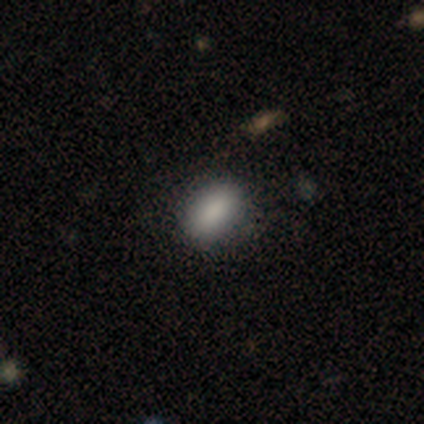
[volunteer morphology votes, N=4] Smooth or featured? 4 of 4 (100%) said smooth. How rounded? 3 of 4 (75%) said in between. Merging? 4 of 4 (100%) said none.